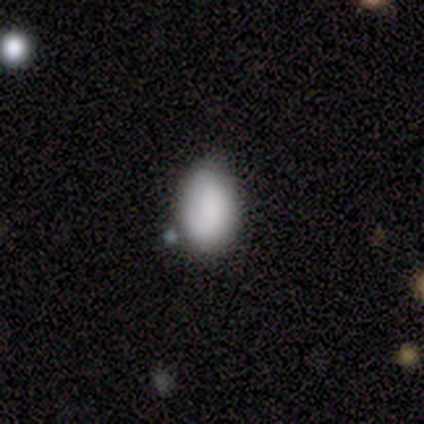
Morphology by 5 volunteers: Overall: smooth (100%). How rounded: in between (80%). Merging: none (80%).